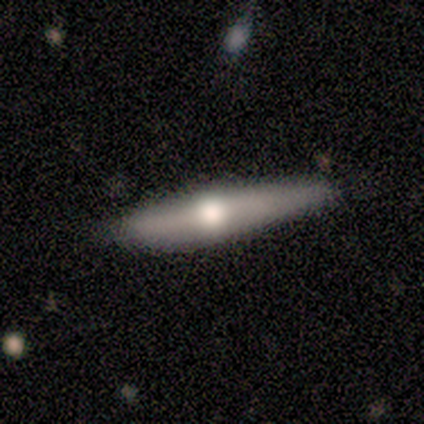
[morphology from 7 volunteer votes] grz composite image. It shows a smooth galaxy with no disk features (43%, tied with featured or disk) that is cigar-shaped (67%). Merging: none (83%).